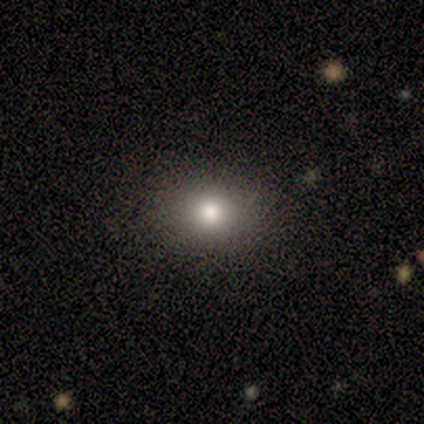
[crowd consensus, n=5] A smooth galaxy with no disk features (100%) that is round (80%). Merging: none (80%).